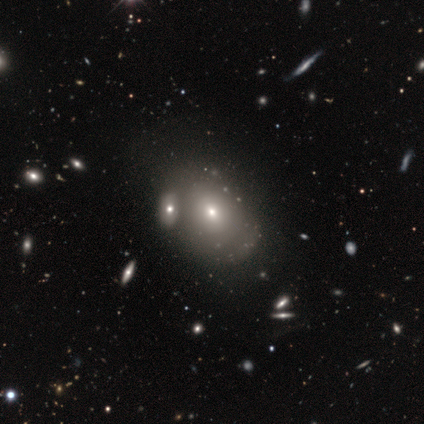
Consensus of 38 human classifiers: Overall: smooth (71%). How rounded: in between (78%). Merging: none (42%, tied with merger).